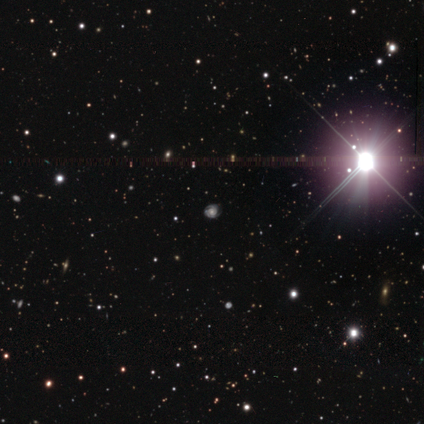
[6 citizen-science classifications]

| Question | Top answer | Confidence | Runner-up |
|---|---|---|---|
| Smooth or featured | star or artifact | 67% | featured or disk (33%) |